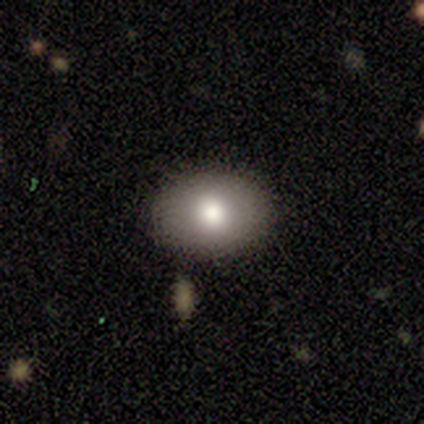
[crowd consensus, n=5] smooth_or_featured: smooth (p=0.80) [alt: featured or disk p=0.20]
how_rounded: in between (p=0.75) [alt: round p=0.25]
merging: none (p=1.00)